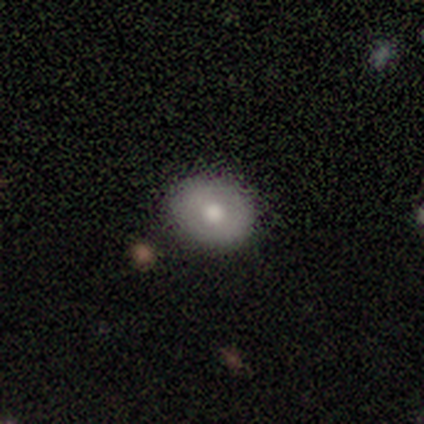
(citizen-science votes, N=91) This appears to be a smooth galaxy with no disk features (69%) that is round (63%). Merging: none (92%).